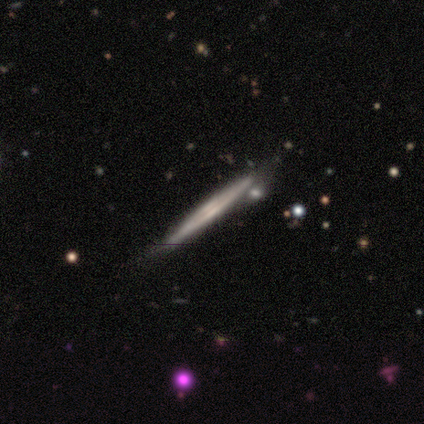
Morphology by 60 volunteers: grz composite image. It shows a featured or disk galaxy (77%) viewed edge-on (100%) with no central bulge (50%). Merging: none (72%).